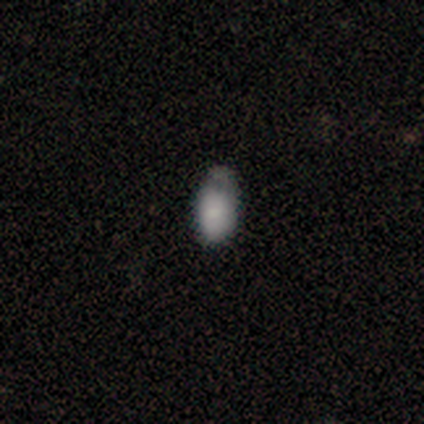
smooth-or-featured: smooth: 100% | featured or disk: 0% | star or artifact: 0%
  how-rounded: in between: 100% | round: 0% | cigar-shaped: 0%
  merging: none: 43% (tied) | minor disturbance: 43% (tied) | major disturbance: 14% | merger: 0%